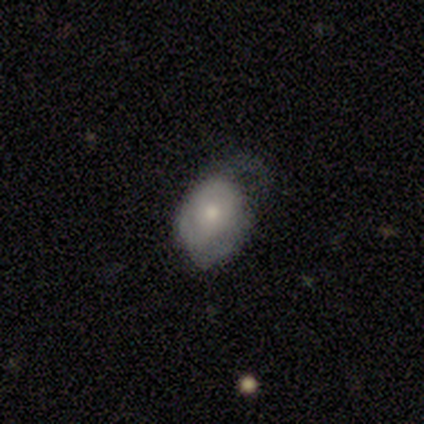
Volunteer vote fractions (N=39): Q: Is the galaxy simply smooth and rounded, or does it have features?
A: smooth — 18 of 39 (46%).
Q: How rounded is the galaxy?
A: in between — 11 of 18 (61%).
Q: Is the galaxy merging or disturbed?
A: none — 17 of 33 (52%).